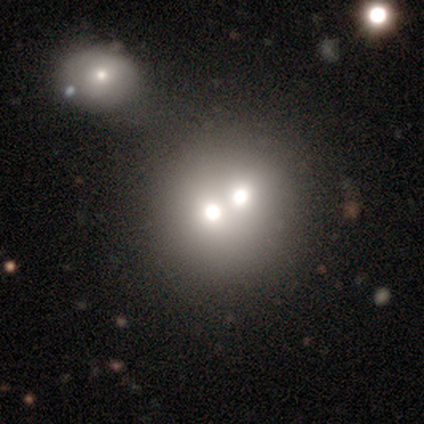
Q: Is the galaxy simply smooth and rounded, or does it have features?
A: smooth — 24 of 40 (60%).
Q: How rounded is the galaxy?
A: round — 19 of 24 (79%).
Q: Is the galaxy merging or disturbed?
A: merger — 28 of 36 (78%).